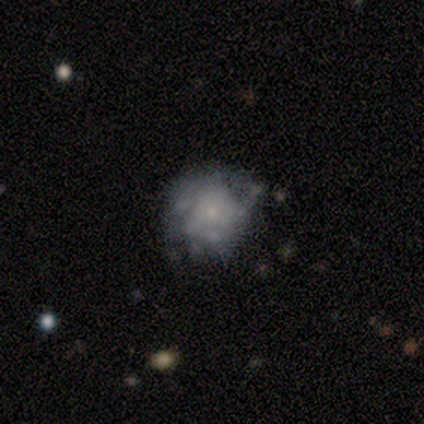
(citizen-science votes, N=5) smooth 60%, featured or disk 40%, star or artifact 0%. Down the decision tree: how rounded — round (67%); merging — none (40%, tied with major disturbance).